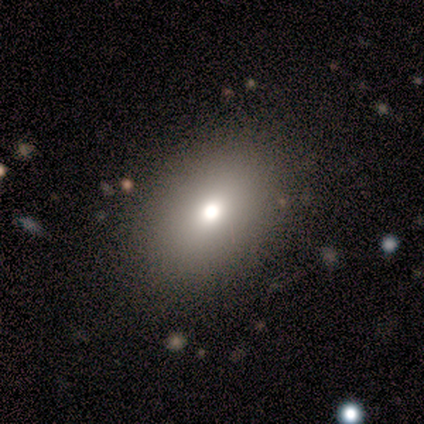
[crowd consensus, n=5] smooth 80%, star or artifact 20%, featured or disk 0%. Down the decision tree: how rounded — round (50%, tied with in between); merging — none (100%).